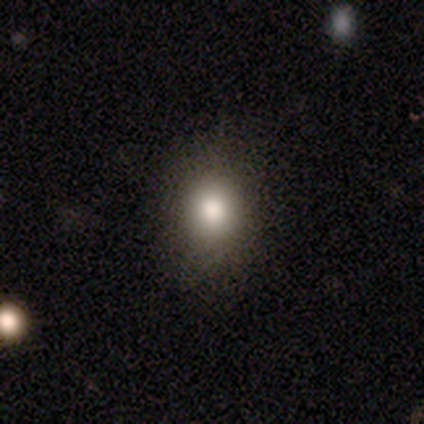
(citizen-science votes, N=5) Volunteers were most divided on "smooth or featured": smooth: 60%, featured or disk: 40%, star or artifact: 0%. More confident: how rounded — round (100%); merging — none (100%).